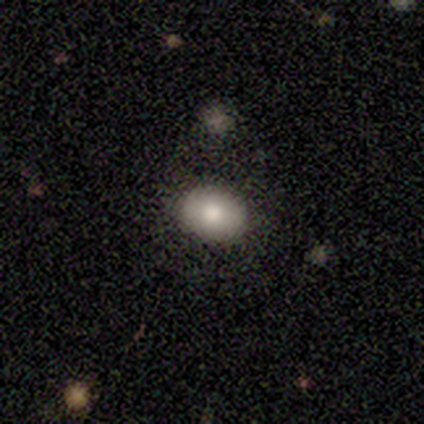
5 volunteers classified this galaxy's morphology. A smooth galaxy with no disk features (80%) that is in between round and cigar-shaped (100%). Merging: none (60%).